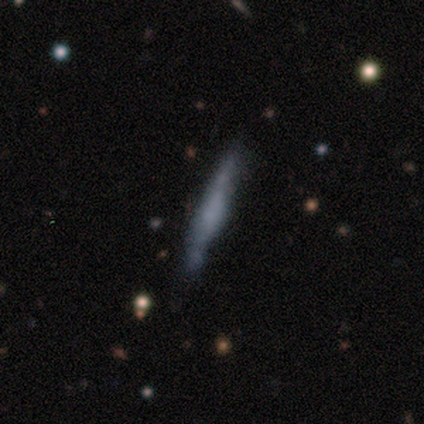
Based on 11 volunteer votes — This appears to be a smooth galaxy with no disk features (55%) that is cigar-shaped (100%). Merging: none (90%).